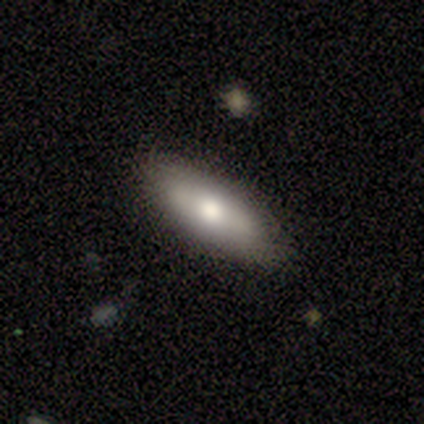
Smooth or featured: featured or disk — 50% (smooth — 25%)
Edge-on disk: no — 100%
Bar: strong — 50% (tied with no — 50%)
Spiral arms: no — 100%
Bulge size: large — 50% (tied with small — 50%)
Merging: minor disturbance — 67% (none — 33%)